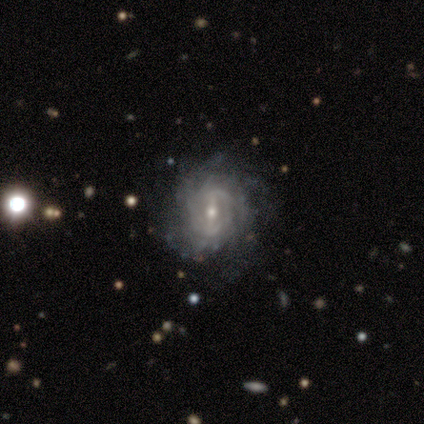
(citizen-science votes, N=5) smooth-or-featured: featured or disk: 80% | star or artifact: 20% | smooth: 0%
  disk-edge-on: no: 100% | yes: 0%
    bar: strong: 50% | weak: 25% | no: 25%
    has-spiral-arms: yes: 100% | no: 0%
      spiral-winding: medium: 75% | tight: 25% | loose: 0%
      spiral-arm-count: 4: 50% | 2: 25% | 3: 25% | 1: 0% | more than 4: 0% | can't tell: 0%
    bulge-size: small: 100% | dominant: 0% | large: 0% | moderate: 0% | none: 0%
  merging: none: 75% | minor disturbance: 25% | major disturbance: 0% | merger: 0%